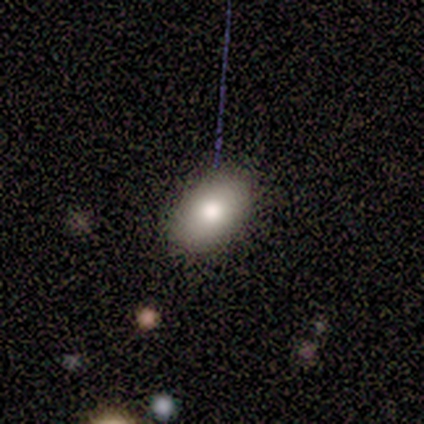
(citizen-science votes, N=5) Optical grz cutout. It shows a smooth galaxy with no disk features (60%) that is in between round and cigar-shaped (100%). Merging: none (80%).